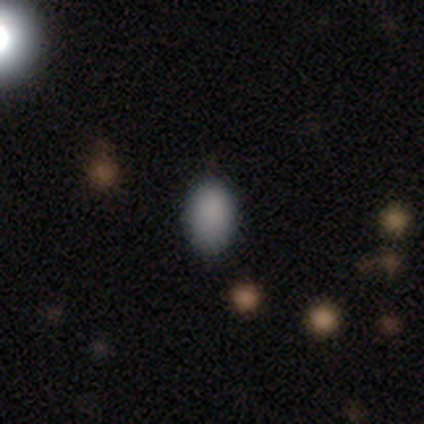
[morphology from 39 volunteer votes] Volunteers were most divided on "how rounded": in between: 82%, round: 18%, cigar-shaped: 0%. More confident: merging — none (86%); smooth or featured — smooth (85%).